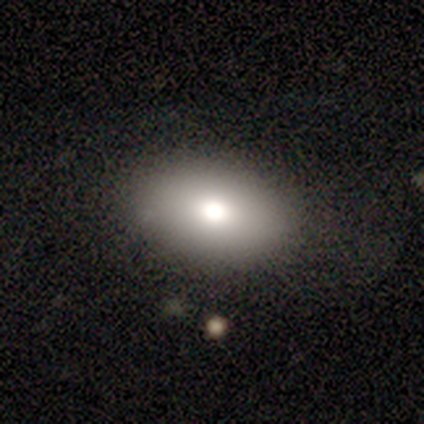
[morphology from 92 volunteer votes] type=smooth (77%); roundness=in between (89%); merging=none (81%).